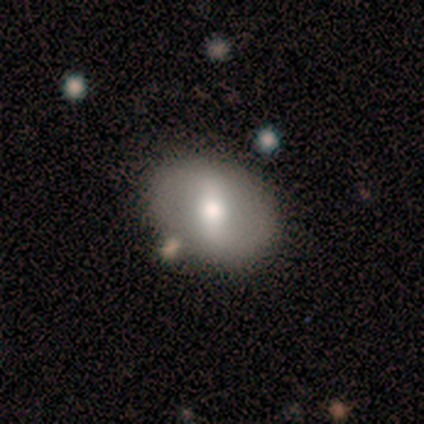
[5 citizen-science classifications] This is likely a featured or disk galaxy (60%). It is clearly not viewed edge-on (100%). Bar: likely strong (67%). Spiral arm pattern: clearly no (100%). Central bulge: likely moderate (67%). Merging: clearly none (80%).